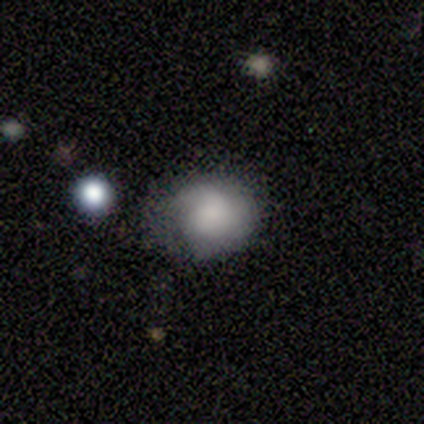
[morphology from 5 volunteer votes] type=smooth (60%); roundness=round (67%); merging=none (60%).